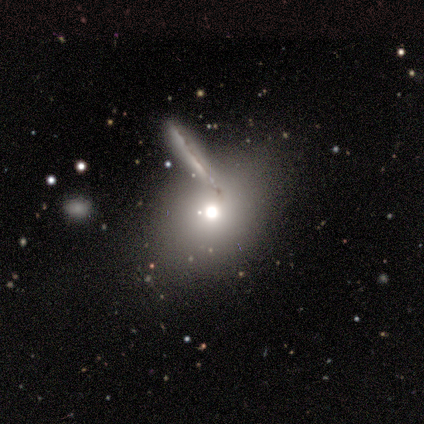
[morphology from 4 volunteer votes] Q: Smooth or featured?
A: smooth (50%); tied with: star or artifact (50%)
Q: How rounded?
A: round (50%); tied with: in between (50%)
Q: Merging?
A: none (100%)